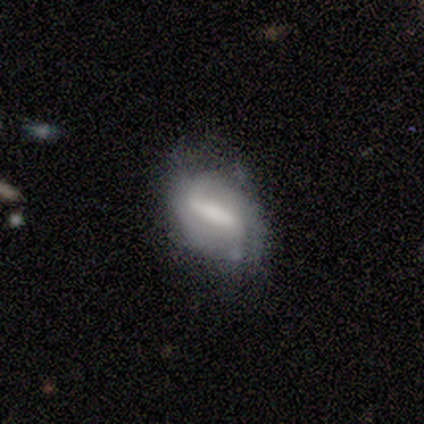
This appears to be a featured or disk galaxy (100%) with a strong bar (100%), 2 (100%) loose (100%) spiral arms (50%, tied with no) and no central bulge (50%). Merging: none (40%, tied with minor disturbance).